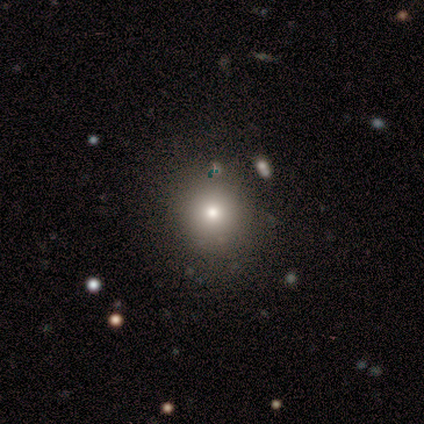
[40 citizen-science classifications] Q: Smooth or featured?
A: smooth (78%); runner-up: star or artifact (12%)
Q: How rounded?
A: round (97%); runner-up: in between (3%)
Q: Merging?
A: none (83%); runner-up: major disturbance (9%)